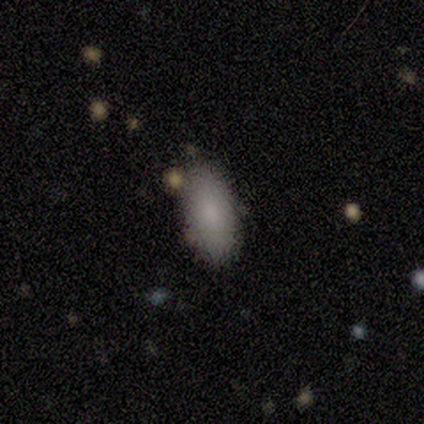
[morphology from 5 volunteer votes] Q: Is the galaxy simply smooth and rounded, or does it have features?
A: smooth — 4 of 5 (80%).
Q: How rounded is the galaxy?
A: in between — 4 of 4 (100%).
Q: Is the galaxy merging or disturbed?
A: none — 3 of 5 (60%).